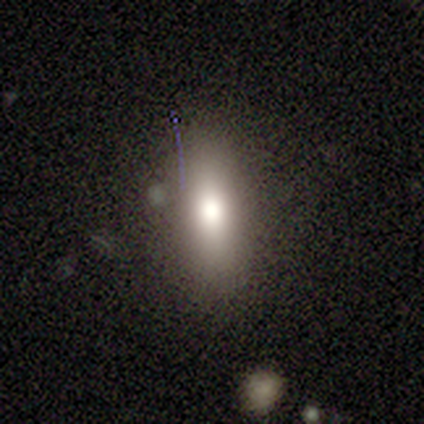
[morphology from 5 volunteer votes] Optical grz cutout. It shows a smooth galaxy with no disk features (80%) that is round (50%). Merging: none (60%).